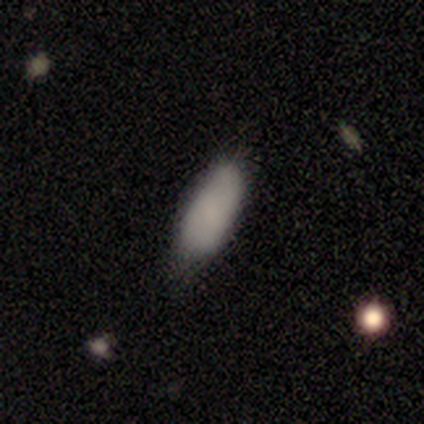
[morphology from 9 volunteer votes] Smooth or featured?
  - smooth: 100% *
  - featured or disk: 0%
  - star or artifact: 0%
How rounded?
  - in between: 89% *
  - cigar-shaped: 11%
  - round: 0%
Merging?
  - none: 78% *
  - minor disturbance: 22%
  - major disturbance: 0%
  - merger: 0%